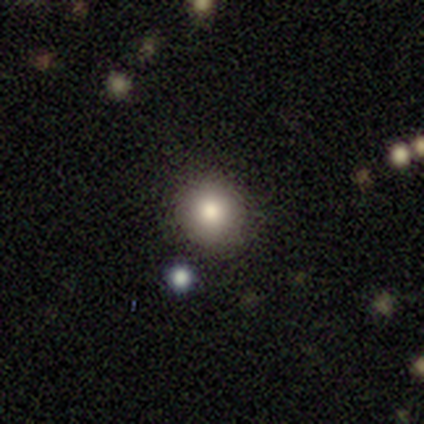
Volunteers were most divided on "merging": none: 77%, merger: 14%, minor disturbance: 9%, major disturbance: 0%. More confident: how rounded — round (91%); smooth or featured — smooth (86%).